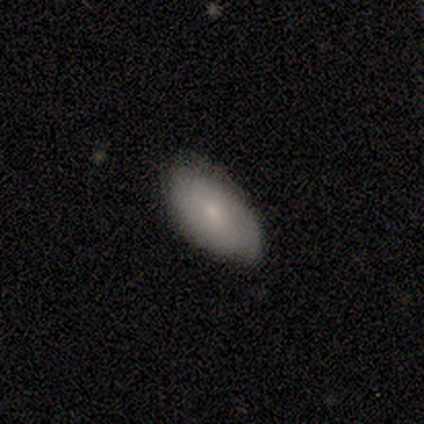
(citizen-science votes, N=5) This appears to be a smooth galaxy with no disk features (80%) that is in between round and cigar-shaped (100%). Merging: none (100%).